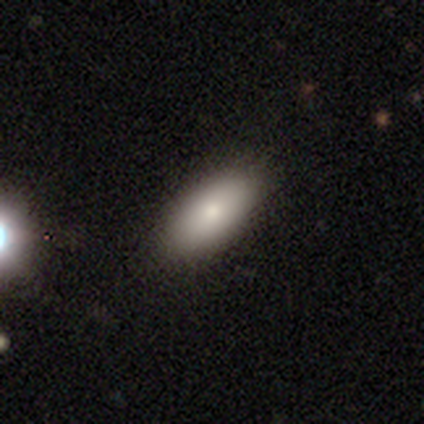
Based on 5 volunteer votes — This appears to be a smooth galaxy with no disk features (60%) that is in between round and cigar-shaped (100%). Merging: none (50%, tied with minor disturbance).